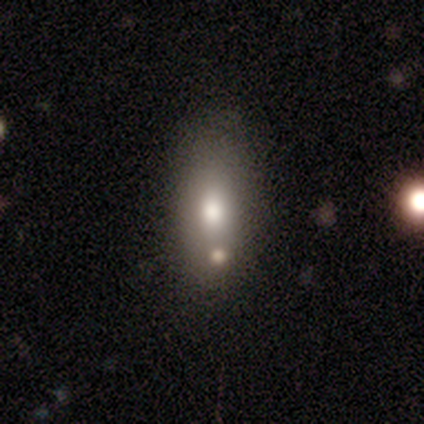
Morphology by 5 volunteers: This appears to be a smooth galaxy with no disk features (80%) that is in between round and cigar-shaped (75%). Merging: none (60%).